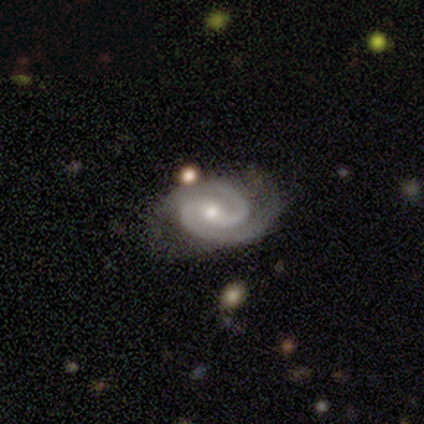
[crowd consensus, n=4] This appears to be a featured or disk galaxy (100%) with no bar (50%), 2 (100%) tight (75%) spiral arms (100%) and a moderate central bulge (50%, tied with small). Merging: none (75%).